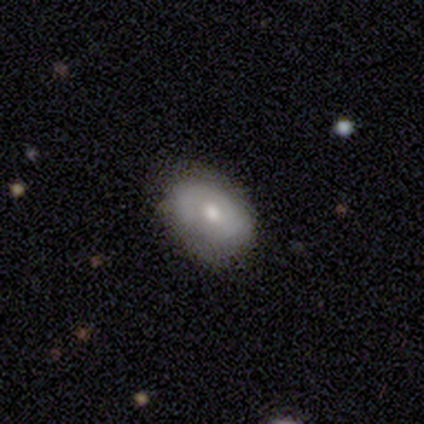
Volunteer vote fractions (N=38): This is likely a smooth galaxy (63%). How rounded: clearly in between (88%). Merging: likely none (78%).